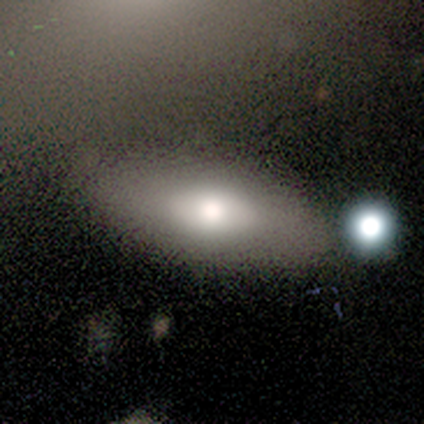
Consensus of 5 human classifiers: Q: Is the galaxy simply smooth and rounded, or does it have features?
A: smooth — 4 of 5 (80%).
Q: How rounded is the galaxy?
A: in between — 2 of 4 (50%, tied with cigar-shaped).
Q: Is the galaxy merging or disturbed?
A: none — 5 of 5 (100%).